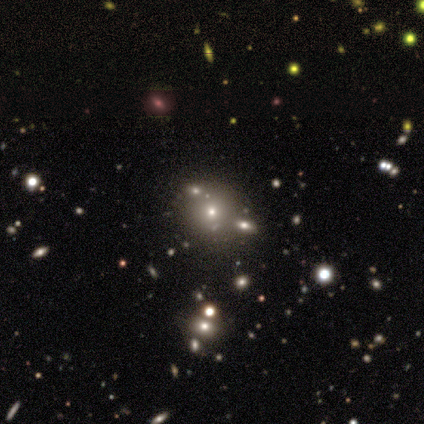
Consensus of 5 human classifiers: Smooth or featured: smooth — 60% (featured or disk — 20%)
How rounded: round — 67% (in between — 33%)
Merging: none — 50% (minor disturbance — 25%)